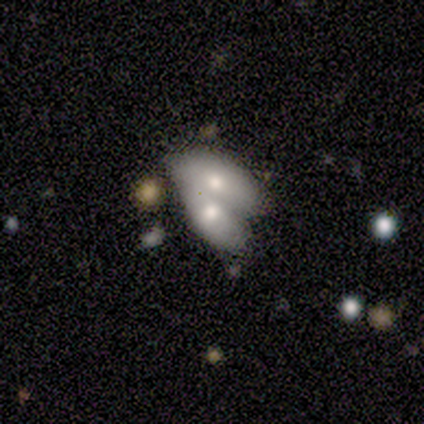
Smooth or featured: featured or disk — 60% (smooth — 40%)
Edge-on disk: no — 100%
Bar: weak — 67% (no — 33%)
Spiral arms: no — 100%
Bulge size: moderate — 67% (large — 33%)
Merging: merger — 100%